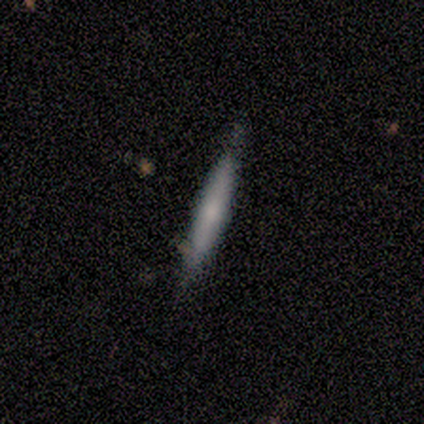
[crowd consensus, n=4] Volunteers were most divided on "edge-on bulge": rounded: 67%, none: 33%, boxy: 0%. More confident: edge-on disk — yes (100%); smooth or featured — featured or disk (75%); merging — none (75%).